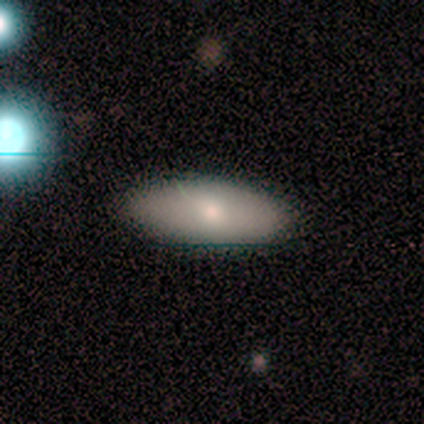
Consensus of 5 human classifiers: Morphology: type=smooth (80%); roundness=in between (100%); merging=none (80%).